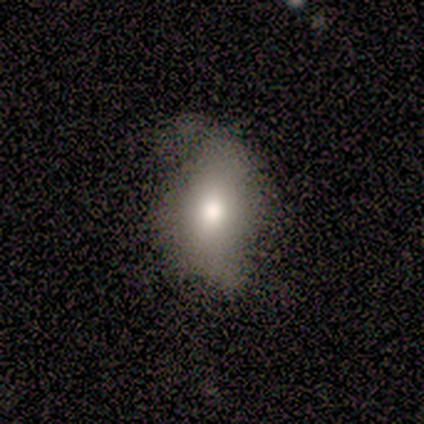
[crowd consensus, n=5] smooth-or-featured: featured or disk: 60% | smooth: 40% | star or artifact: 0%
  disk-edge-on: no: 100% | yes: 0%
    bar: no: 100% | strong: 0% | weak: 0%
    has-spiral-arms: no: 67% | yes: 33%
    bulge-size: moderate: 100% | dominant: 0% | large: 0% | small: 0% | none: 0%
  merging: none: 40% (tied) | minor disturbance: 40% (tied) | major disturbance: 20% | merger: 0%